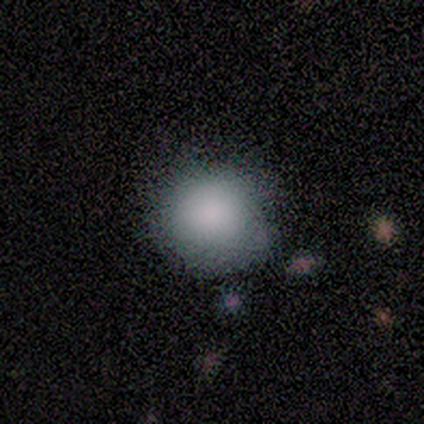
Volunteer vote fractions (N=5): Volunteers were most divided on "how rounded": round: 75%, in between: 25%, cigar-shaped: 0%. More confident: smooth or featured — smooth (80%); merging — none (75%).